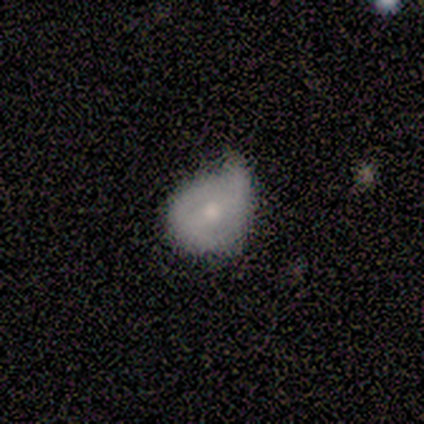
Smooth or featured? featured or disk (50%)
Edge-on disk? no (100%)
Bar? no (100%)
Spiral arms? yes (50%, tied with no)
Spiral winding? loose (100%)
Spiral arm count? 1 (100%)
Bulge size? small (50%, tied with none)
Merging? minor disturbance (67%)